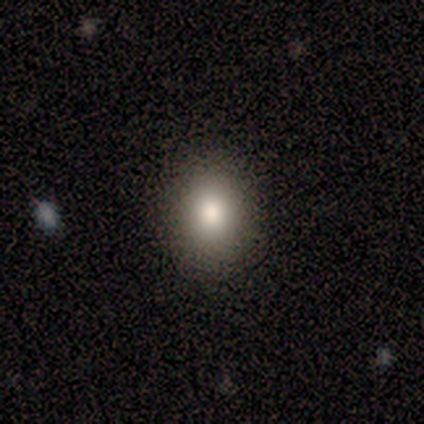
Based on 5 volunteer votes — smooth 60%, featured or disk 20%, star or artifact 20%. Down the decision tree: how rounded — round (67%); merging — none (100%).